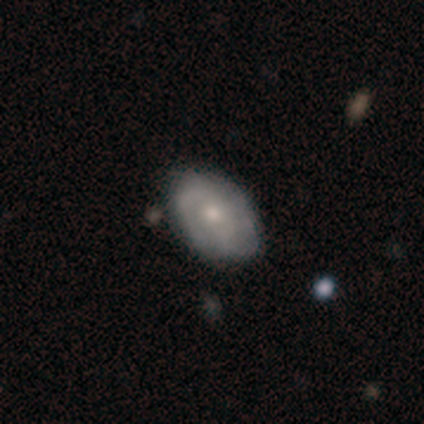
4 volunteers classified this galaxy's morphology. smooth 50% (tied), featured or disk 50% (tied), star or artifact 0%. Down the decision tree: how rounded — in between (100%); merging — none (100%).